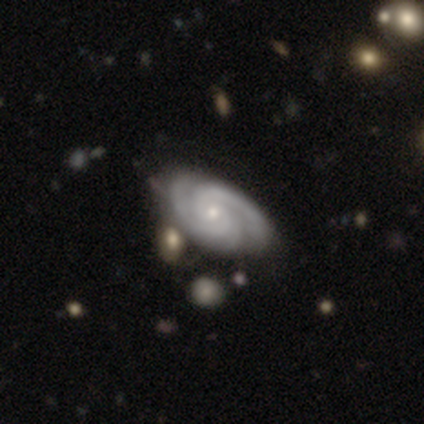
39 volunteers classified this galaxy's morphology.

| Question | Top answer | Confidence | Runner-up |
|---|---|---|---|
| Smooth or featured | featured or disk | 82% | smooth (13%) |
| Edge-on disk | no | 97% | yes (3%) |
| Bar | no | 65% | weak (26%) |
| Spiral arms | yes | 100% | — |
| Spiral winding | tight | 74% | medium (26%) |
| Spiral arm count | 2 | 58% | 3 (35%) |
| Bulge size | small | 84% | moderate (16%) |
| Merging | none | 68% | minor disturbance (24%) |